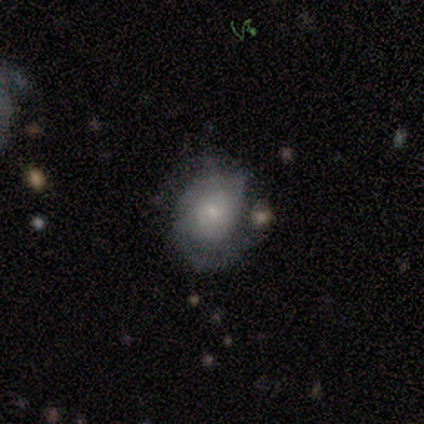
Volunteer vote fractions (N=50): featured or disk 68%, smooth 28%, star or artifact 4%. Down the decision tree: edge-on disk — no (97%); bar — no (61%); spiral arms — yes (91%); spiral arm count — 2 (63%); spiral winding — tight (50%); bulge size — small (58%); merging — none (71%).